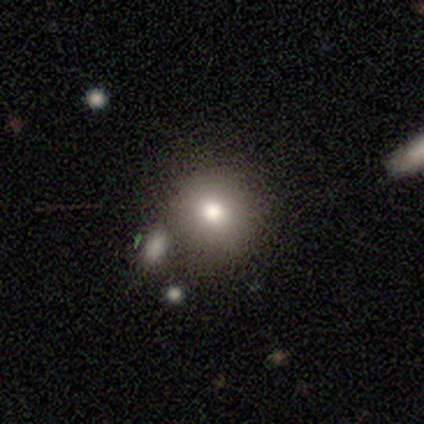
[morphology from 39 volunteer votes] Overall: smooth (82%). How rounded: round (91%). Merging: none (80%).